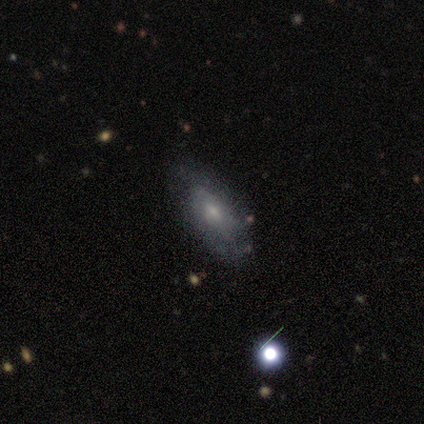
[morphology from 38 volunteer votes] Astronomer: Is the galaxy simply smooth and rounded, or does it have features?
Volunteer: featured or disk — 50% (runner-up: smooth, 45%).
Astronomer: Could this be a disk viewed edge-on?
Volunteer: no — 95%.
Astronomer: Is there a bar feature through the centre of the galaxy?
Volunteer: no — 78%.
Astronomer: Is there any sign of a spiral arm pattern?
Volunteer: yes — 61% (runner-up: no, 39%).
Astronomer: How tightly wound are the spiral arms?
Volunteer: tight — 45%, tied with medium at 45%.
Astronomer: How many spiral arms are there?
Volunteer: can't tell — 55% (runner-up: 2, 36%).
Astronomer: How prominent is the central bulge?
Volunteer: moderate — 50% (runner-up: small, 44%).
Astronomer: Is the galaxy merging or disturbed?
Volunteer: none — 83%.